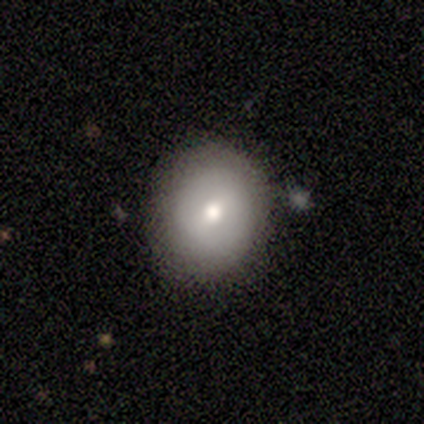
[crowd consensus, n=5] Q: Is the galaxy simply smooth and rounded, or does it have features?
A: smooth — 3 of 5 (60%).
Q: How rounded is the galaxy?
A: round — 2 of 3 (67%).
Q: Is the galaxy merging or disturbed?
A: none — 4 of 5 (80%).